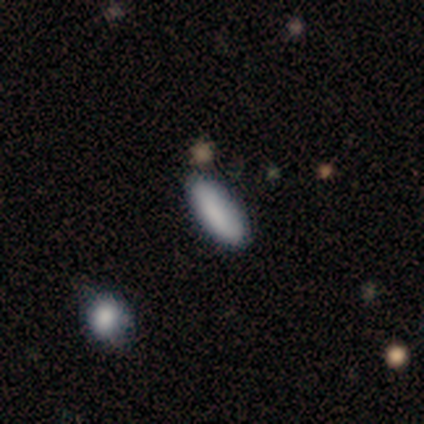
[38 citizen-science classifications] Morphology: type=smooth (89%); roundness=in between (85%); merging=none (92%).